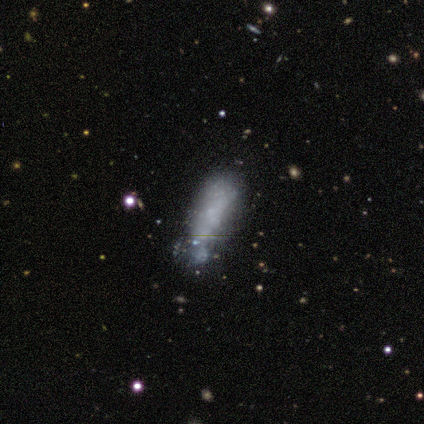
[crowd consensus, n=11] Smooth or featured?
  - featured or disk: 55% *
  - smooth: 36%
  - star or artifact: 9%
Edge-on disk?
  - no: 83% *
  - yes: 17%
Bar?
  - no: 80% *
  - weak: 20%
  - strong: 0%
Spiral arms?
  - no: 80% *
  - yes: 20%
Bulge size?
  - none: 60% *
  - moderate: 40%
  - dominant: 0%
  - large: 0%
  - small: 0%
Merging?
  - none: 50% *
  - minor disturbance: 40%
  - major disturbance: 10%
  - merger: 0%